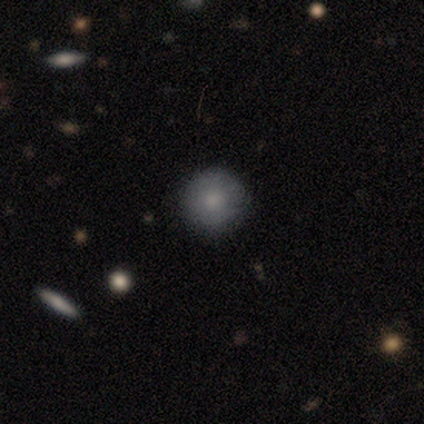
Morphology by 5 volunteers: Q: Smooth or featured?
A: smooth (100%)
Q: How rounded?
A: round (100%)
Q: Merging?
A: none (80%); runner-up: minor disturbance (20%)